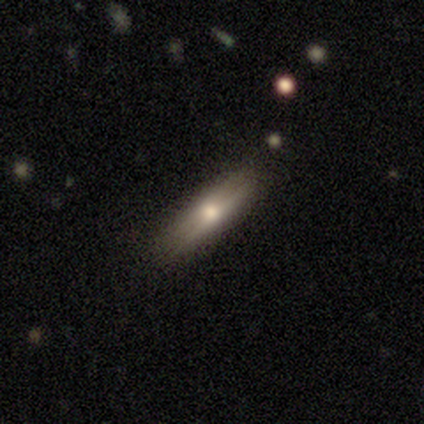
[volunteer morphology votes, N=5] This is likely a smooth galaxy (60%). How rounded: clearly cigar-shaped (100%). Merging: possibly none (50%, tied with minor disturbance).